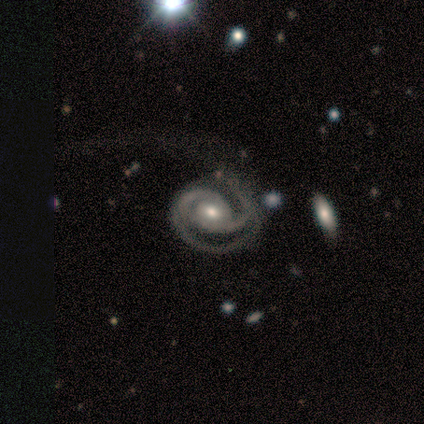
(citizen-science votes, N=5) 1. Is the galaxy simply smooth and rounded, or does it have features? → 100% featured or disk, 0% smooth, 0% star or artifact.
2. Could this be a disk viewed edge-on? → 100% no, 0% yes.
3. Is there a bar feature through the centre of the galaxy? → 80% no, 20% weak, 0% strong.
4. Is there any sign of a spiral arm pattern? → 100% yes, 0% no.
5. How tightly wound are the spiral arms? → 60% tight, 20% medium, 20% loose.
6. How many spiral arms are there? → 60% 2, 40% can't tell, 0% 1, 0% 3, 0% 4, 0% more than 4.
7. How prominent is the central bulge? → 80% moderate, 20% small, 0% dominant, 0% large, 0% none.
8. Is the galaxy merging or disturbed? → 60% major disturbance, 40% none, 0% minor disturbance, 0% merger.